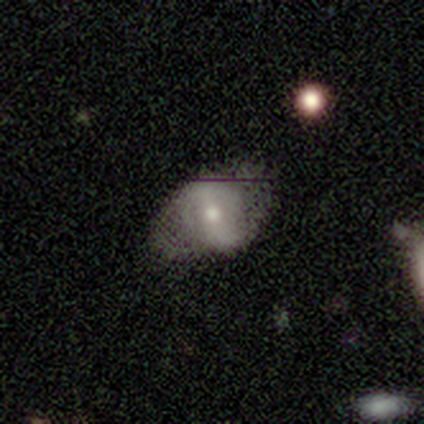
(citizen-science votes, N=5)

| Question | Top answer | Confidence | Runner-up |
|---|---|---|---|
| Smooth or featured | smooth | 80% | featured or disk (20%) |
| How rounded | in between | 100% | — |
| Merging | none | 40% | tied: minor disturbance (40%) |